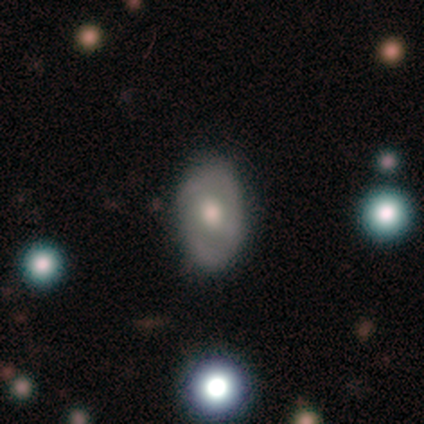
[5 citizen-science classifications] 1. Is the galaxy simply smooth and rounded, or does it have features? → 100% featured or disk, 0% smooth, 0% star or artifact.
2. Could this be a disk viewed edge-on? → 100% no, 0% yes.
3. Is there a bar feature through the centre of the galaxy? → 60% weak, 40% no, 0% strong.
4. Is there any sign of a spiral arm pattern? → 60% no, 40% yes.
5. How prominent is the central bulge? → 80% moderate, 20% large, 0% dominant, 0% small, 0% none.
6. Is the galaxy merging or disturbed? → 80% none, 20% minor disturbance, 0% major disturbance, 0% merger.